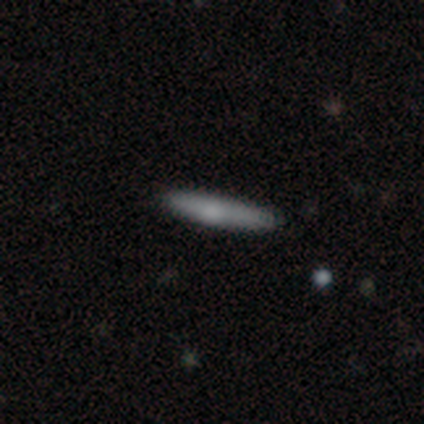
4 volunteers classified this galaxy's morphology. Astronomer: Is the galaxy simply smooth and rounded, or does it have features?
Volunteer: smooth — 75%.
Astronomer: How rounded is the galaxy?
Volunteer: cigar-shaped — 100%.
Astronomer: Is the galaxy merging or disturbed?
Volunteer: none — 100%.